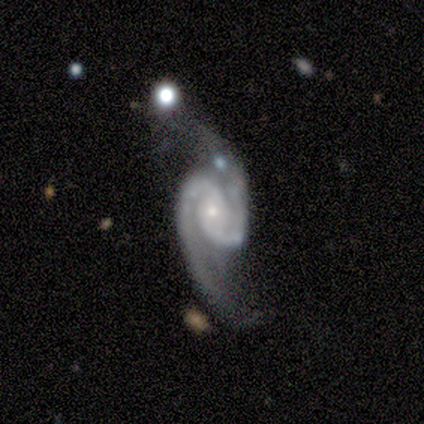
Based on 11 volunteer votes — A featured or disk galaxy (91%) with no bar (60%), 2 (90%) loose (50%) spiral arms (100%) and a small central bulge (80%).

Vote fractions:
- Smooth or featured? featured or disk: 91% / smooth: 9% / star or artifact: 0%
- Edge-on disk? no: 100% / yes: 0%
- Bar? no: 60% / weak: 30% / strong: 10%
- Spiral arms? yes: 100% / no: 0%
- Spiral winding? loose: 50% / medium: 40% / tight: 10%
- Spiral arm count? 2: 90% / 1: 10% / 3: 0% / 4: 0% / more than 4: 0% / can't tell: 0%
- Bulge size? small: 80% / moderate: 20% / dominant: 0% / large: 0% / none: 0%
- Merging? none: 36% / major disturbance: 27% / merger: 27% / minor disturbance: 9%